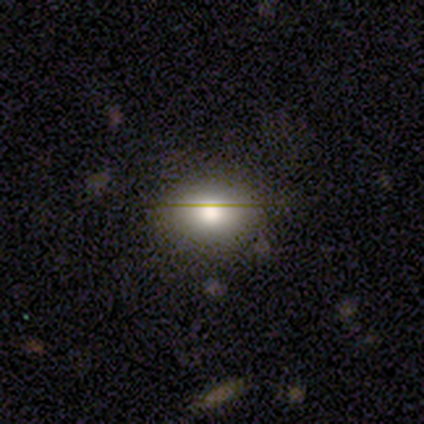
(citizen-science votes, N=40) Smooth or featured?
  - smooth: 88% *
  - featured or disk: 10%
  - star or artifact: 2%
How rounded?
  - in between: 71% *
  - round: 26%
  - cigar-shaped: 3%
Merging?
  - none: 85% *
  - minor disturbance: 8%
  - major disturbance: 8%
  - merger: 0%